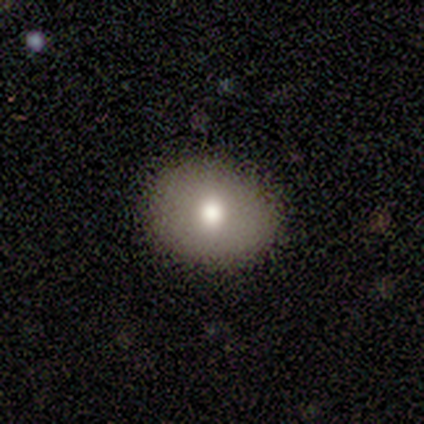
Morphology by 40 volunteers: smooth-or-featured: smooth: 78% | star or artifact: 12% | featured or disk: 10%
  how-rounded: round: 65% | in between: 35% | cigar-shaped: 0%
  merging: none: 86% | minor disturbance: 11% | major disturbance: 3% | merger: 0%